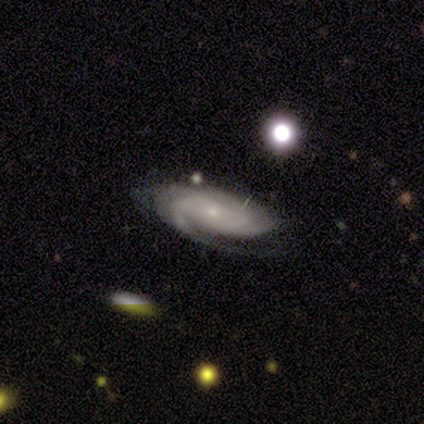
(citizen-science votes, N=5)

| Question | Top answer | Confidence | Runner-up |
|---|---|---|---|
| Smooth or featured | featured or disk | 100% | — |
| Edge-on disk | no | 100% | — |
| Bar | no | 100% | — |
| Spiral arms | yes | 100% | — |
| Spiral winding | tight | 100% | — |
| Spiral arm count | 2 | 40% | 1 (20%) |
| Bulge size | small | 100% | — |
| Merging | none | 100% | — |